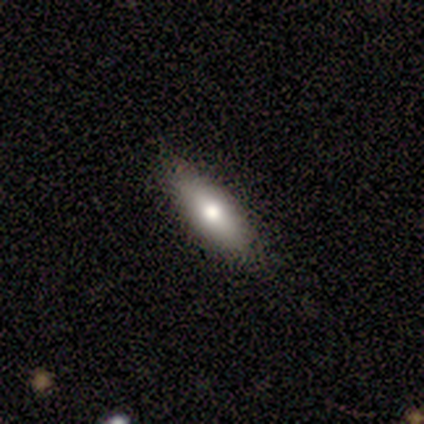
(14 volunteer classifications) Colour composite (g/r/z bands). It shows a smooth galaxy with no disk features (64%) that is cigar-shaped (56%). Merging: none (79%).